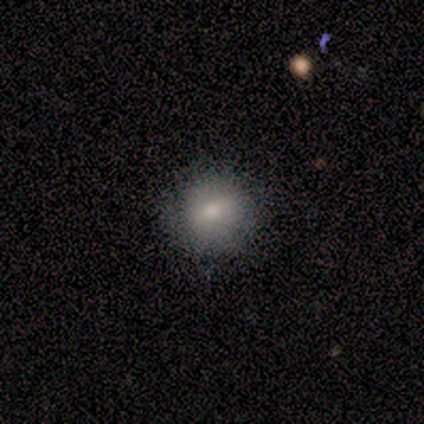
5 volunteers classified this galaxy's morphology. A smooth galaxy with no disk features (80%) that is round (100%). Merging: none (100%).